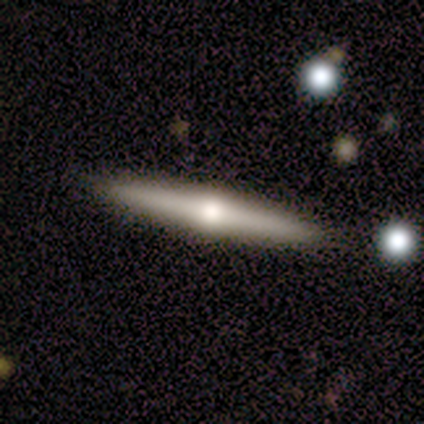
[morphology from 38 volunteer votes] Q: Smooth or featured?
A: featured or disk (79%); runner-up: smooth (18%)
Q: Edge-on disk?
A: yes (100%)
Q: Edge-on bulge?
A: rounded (93%); runner-up: none (7%)
Q: Merging?
A: none (89%); runner-up: minor disturbance (5%)